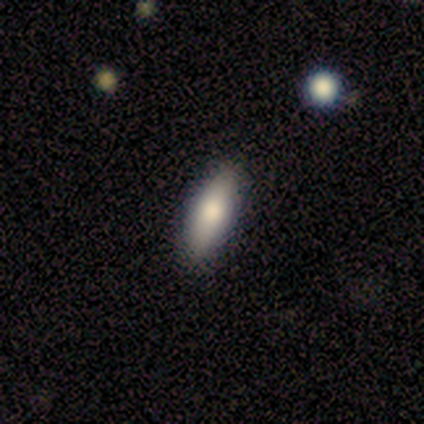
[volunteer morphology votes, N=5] smooth 60%, star or artifact 40%, featured or disk 0%. Down the decision tree: how rounded — in between (100%); merging — none (100%).